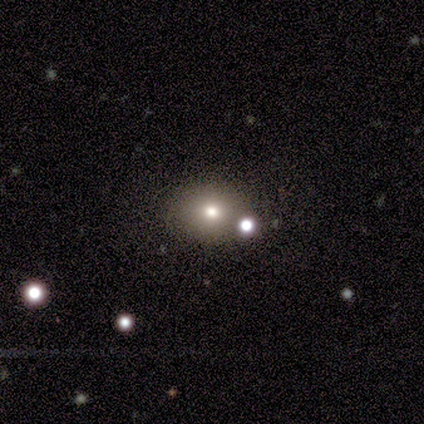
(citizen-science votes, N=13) Volunteers were most divided on "how rounded" (2-way tie): round: 50%, in between: 50%, cigar-shaped: 0%. More confident: merging — none (85%); smooth or featured — smooth (77%).